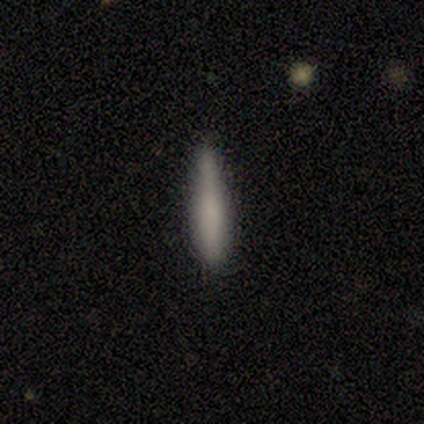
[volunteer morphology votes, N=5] Smooth or featured: smooth — 80% (featured or disk — 20%)
How rounded: cigar-shaped — 100%
Merging: none — 60% (minor disturbance — 20%)